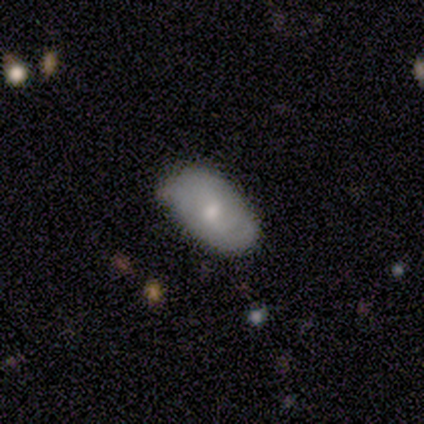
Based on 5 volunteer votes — A smooth galaxy with no disk features (80%) that is in between round and cigar-shaped (100%). Merging: none (80%).